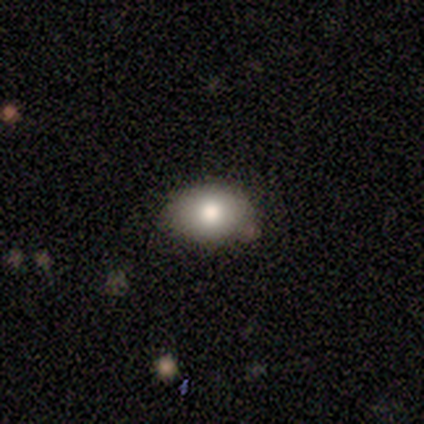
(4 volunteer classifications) Smooth or featured: smooth — 75% (star or artifact — 25%)
How rounded: in between — 100%
Merging: none — 67% (minor disturbance — 33%)